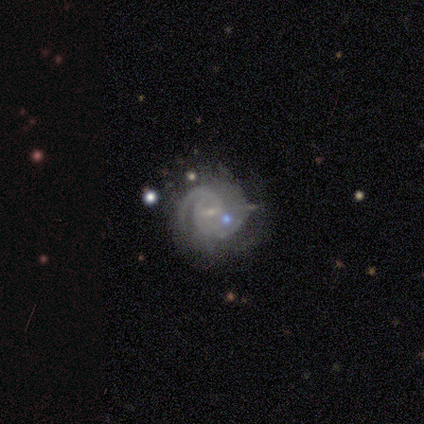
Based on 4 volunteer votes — Q: Smooth or featured?
A: featured or disk (100%)
Q: Edge-on disk?
A: no (100%)
Q: Bar?
A: weak (75%); runner-up: no (25%)
Q: Spiral arms?
A: yes (100%)
Q: Spiral winding?
A: medium (75%); runner-up: tight (25%)
Q: Spiral arm count?
A: 2 (50%); runner-up: 1 (25%)
Q: Bulge size?
A: small (100%)
Q: Merging?
A: minor disturbance (75%); runner-up: none (25%)